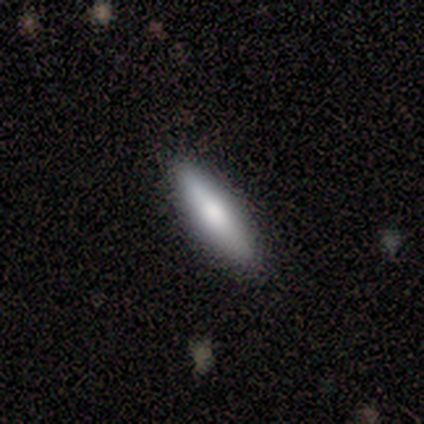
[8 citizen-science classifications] Morphology: type=smooth (62%); roundness=cigar-shaped (80%); merging=none (86%).